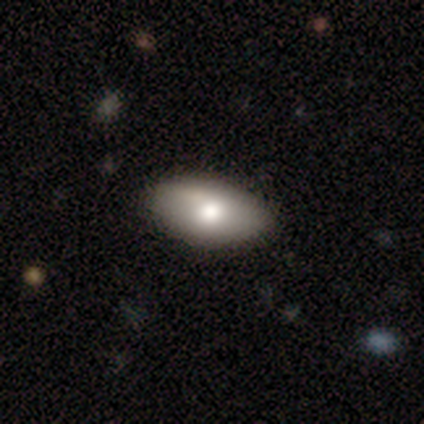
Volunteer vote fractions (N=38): Overall: smooth (66%; featured or disk 34%). How rounded: in between (100%). Merging: none (63%).